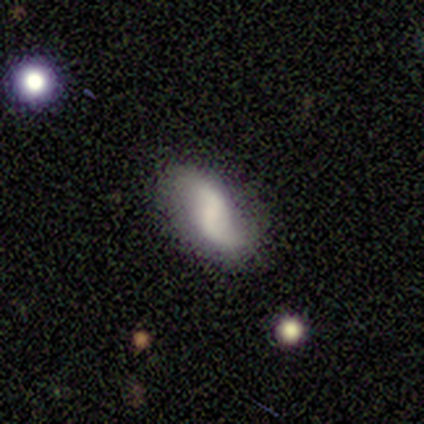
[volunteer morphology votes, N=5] Volunteers were most divided on "bar": no: 50%, strong: 25%, weak: 25%. More confident: edge-on disk — no (100%); spiral arm count — 2 (100%); bulge size — none (100%); smooth or featured — featured or disk (80%); merging — none (80%); spiral arms — yes (75%); spiral winding — loose (67%).